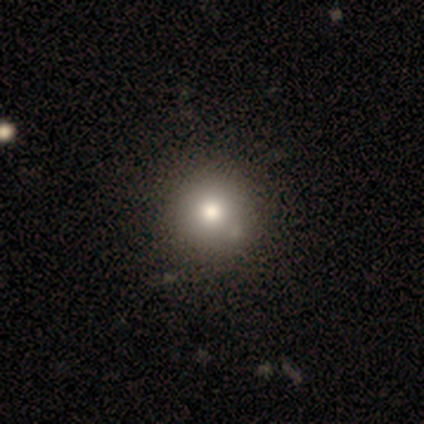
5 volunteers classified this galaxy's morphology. smooth_or_featured: smooth (p=0.80) [alt: featured or disk p=0.20]
how_rounded: round (p=1.00)
merging: none (p=1.00)